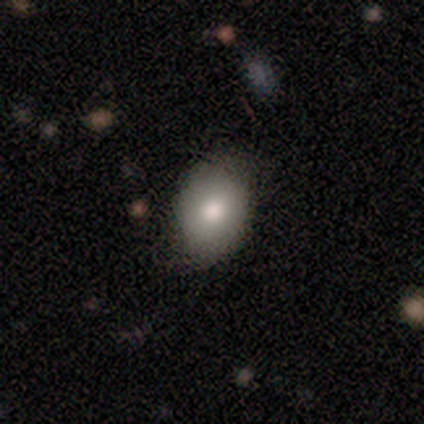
smooth-or-featured: smooth: 78% | featured or disk: 22% | star or artifact: 0%
  how-rounded: in between: 86% | round: 14% | cigar-shaped: 0%
  merging: none: 67% | minor disturbance: 33% | major disturbance: 0% | merger: 0%